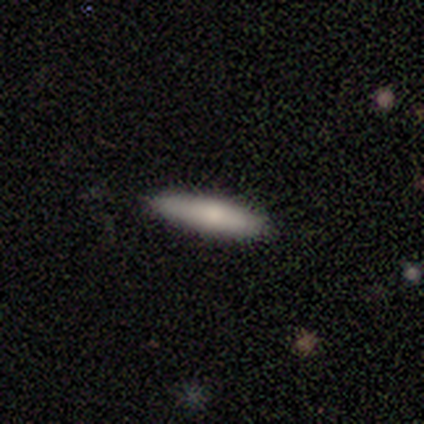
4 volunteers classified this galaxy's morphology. Smooth or featured? smooth (100%)
How rounded? cigar-shaped (100%)
Merging? none (100%)